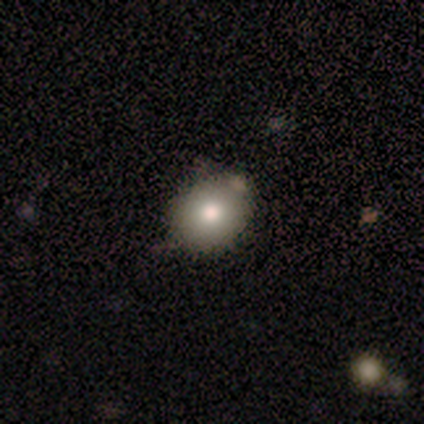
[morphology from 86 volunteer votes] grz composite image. It shows a smooth galaxy with no disk features (78%) that is round (63%). Merging: none (78%).